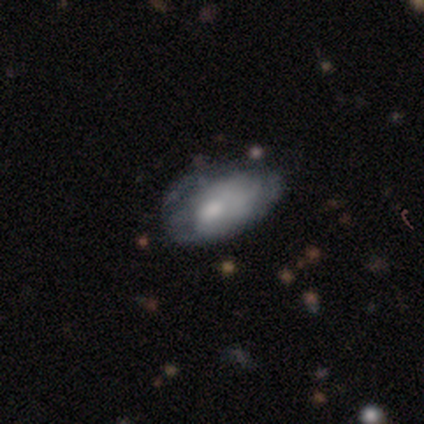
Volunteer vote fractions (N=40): Smooth or featured: featured or disk — 55% (smooth — 42%)
Edge-on disk: no — 91% (yes — 9%)
Bar: no — 100%
Spiral arms: no — 65% (yes — 35%)
Bulge size: small — 45% (moderate — 40%)
Merging: none — 31% (minor disturbance — 15%)